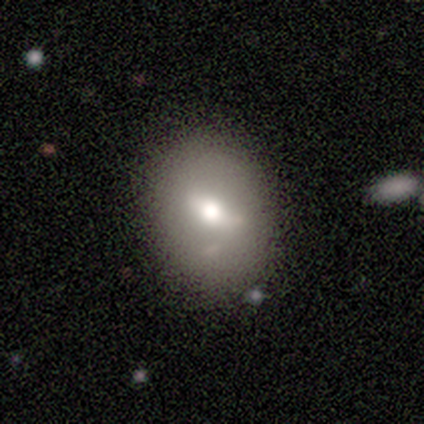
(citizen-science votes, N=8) Morphology: type=smooth (62%); roundness=in between (80%); merging=none (88%).